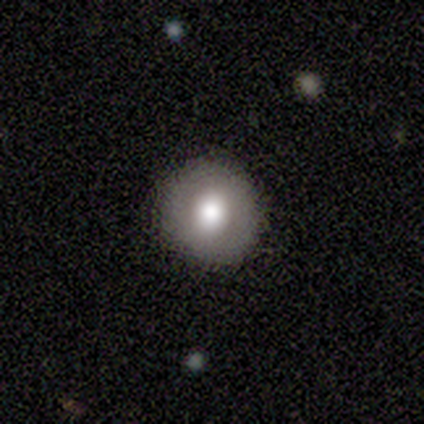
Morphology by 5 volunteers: Overall: featured or disk (60%; smooth 40%). Edge-on disk: no (100%). Bar: strong (33%, tied with weak and no). Spiral arms: no (100%). Bulge size: large (100%). Merging: none (80%).